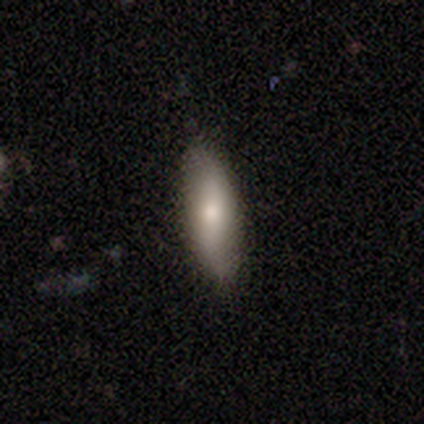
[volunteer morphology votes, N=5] This appears to be a smooth galaxy with no disk features (60%) that is in between round and cigar-shaped (67%). Merging: none (100%).